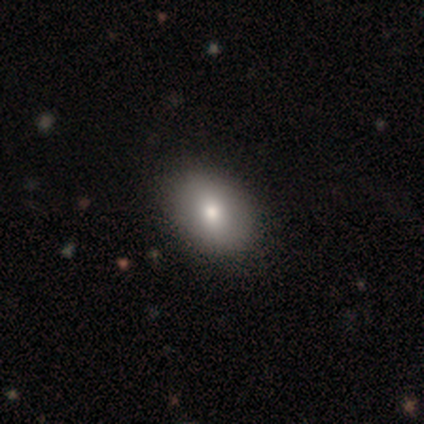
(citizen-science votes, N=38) Morphology: type=smooth (89%); roundness=in between (68%); merging=none (53%).